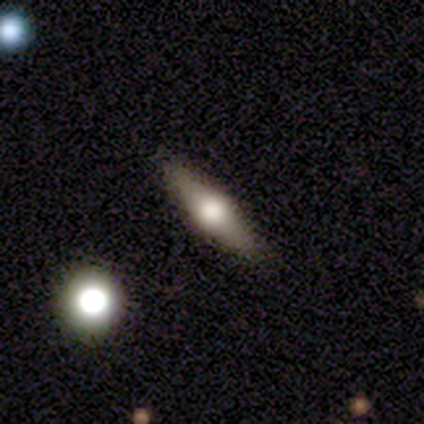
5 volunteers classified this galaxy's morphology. smooth 60%, featured or disk 40%, star or artifact 0%. Down the decision tree: how rounded — cigar-shaped (67%); merging — none (100%).